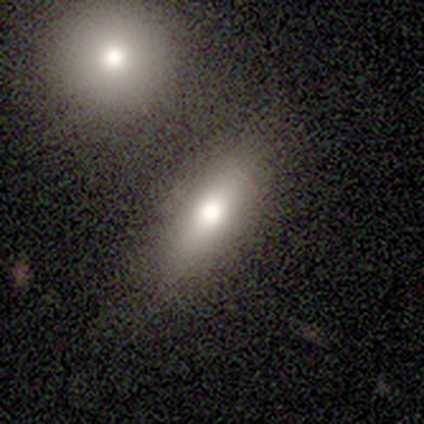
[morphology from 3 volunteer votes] smooth_or_featured: smooth (p=0.67) [alt: featured or disk p=0.33]
how_rounded: in between (p=0.50) [tied with: cigar-shaped p=0.50]
merging: none (p=1.00)